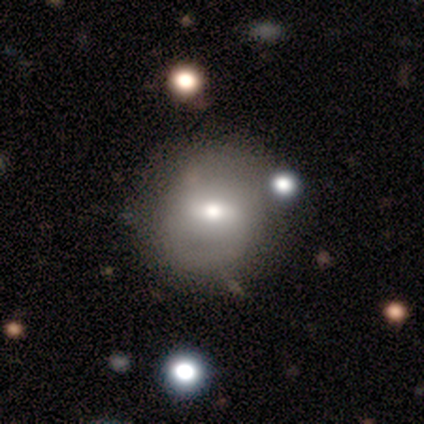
This appears to be a smooth galaxy with no disk features (45%) that is round (78%). Merging: none (57%).